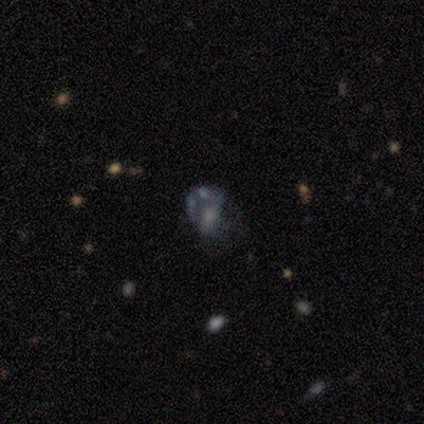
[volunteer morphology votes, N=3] Overall: star or artifact (67%; smooth 33%).